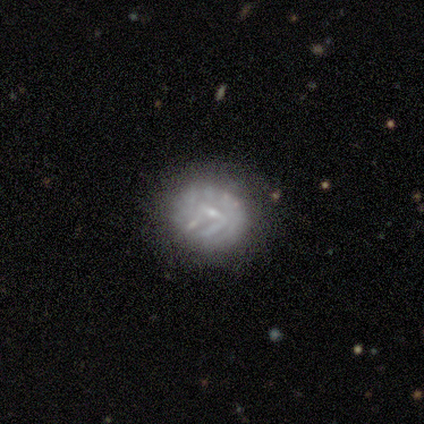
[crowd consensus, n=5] This is clearly a featured or disk galaxy (100%). It is clearly not viewed edge-on (100%). Bar: likely weak (60%). Spiral arm pattern: likely yes (60%). Spiral arm count: marginally 1 (33%, tied with 2 and can't tell). Spiral winding: likely medium (67%). Central bulge: clearly small (80%). Merging: clearly none (80%).